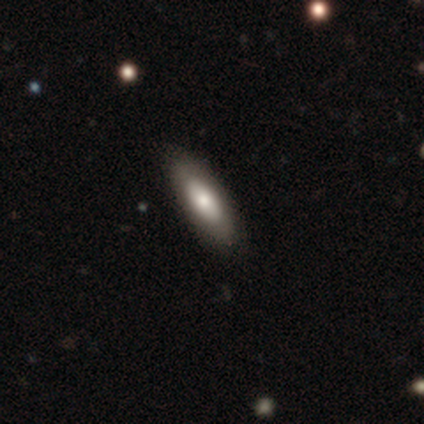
Morphology: type=featured or disk (80%); edge-on=no (75%); bar=no (67%); spiral arms=no (100%); bulge=large (33%, tied with moderate and small); merging=none (100%).